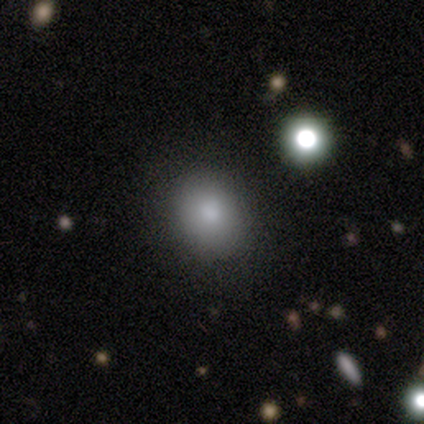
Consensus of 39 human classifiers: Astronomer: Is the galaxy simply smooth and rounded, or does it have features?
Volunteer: smooth — 85%.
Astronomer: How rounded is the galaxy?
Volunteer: round — 58% (runner-up: in between, 39%).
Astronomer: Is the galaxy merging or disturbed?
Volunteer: none — 94%.